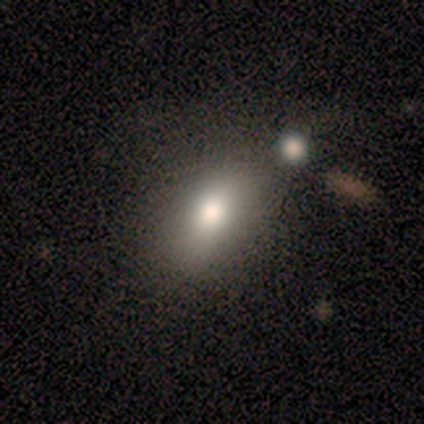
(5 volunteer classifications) A smooth galaxy with no disk features (60%) that is in between round and cigar-shaped (67%). Merging: minor disturbance (67%).